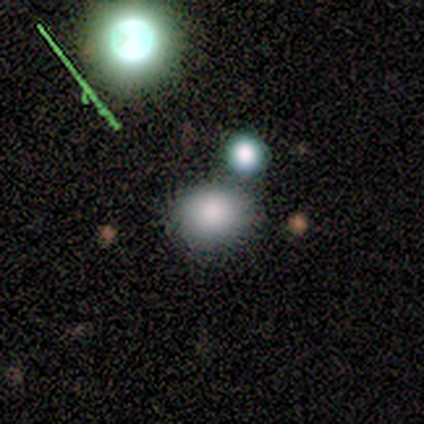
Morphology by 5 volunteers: type=smooth (80%); roundness=in between (75%); merging=none (80%).